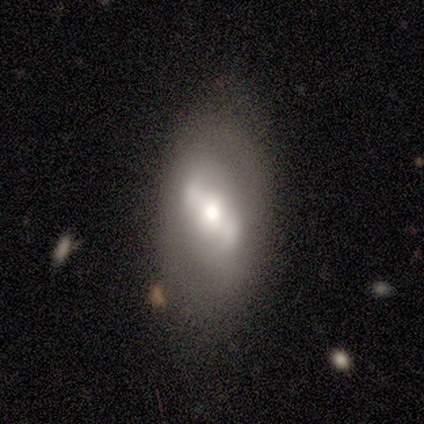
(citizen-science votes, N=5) Smooth or featured: smooth — 40% (tied with featured or disk — 40%)
How rounded: in between — 100%
Merging: none — 50% (minor disturbance — 25%)